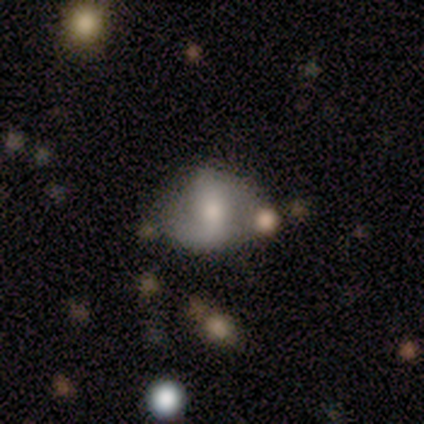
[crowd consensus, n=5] Smooth or featured: featured or disk — 60% (smooth — 40%)
Edge-on disk: no — 100%
Bar: strong — 67% (weak — 33%)
Spiral arms: yes — 100%
Spiral winding: medium — 67% (loose — 33%)
Spiral arm count: 2 — 100%
Bulge size: large — 33% (tied with moderate — 33%; small — 33%)
Merging: minor disturbance — 80% (none — 20%)